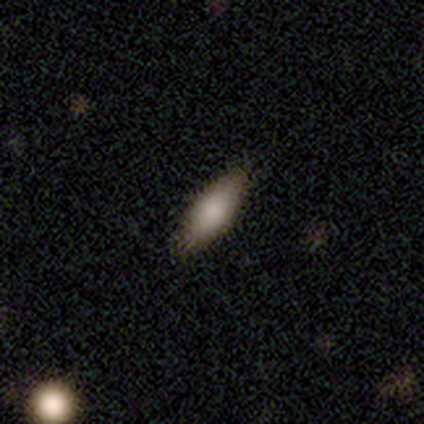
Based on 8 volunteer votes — Smooth or featured? 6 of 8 (75%) said smooth. How rounded? 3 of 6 (50%, tied with cigar-shaped) said in between. Merging? 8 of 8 (100%) said none.